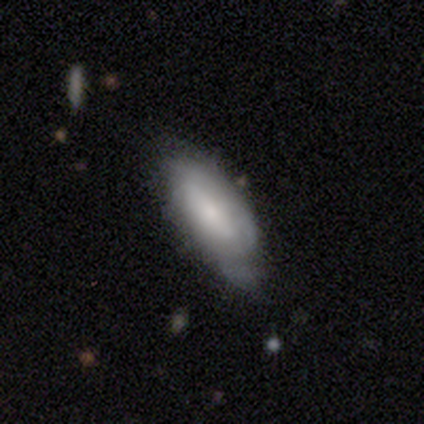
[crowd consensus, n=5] featured or disk 80%, smooth 20%, star or artifact 0%. Down the decision tree: edge-on disk — no (75%); bar — no (67%); spiral arms — yes (100%); spiral arm count — can't tell (100%); spiral winding — tight (67%); bulge size — moderate (67%); merging — none (40%).